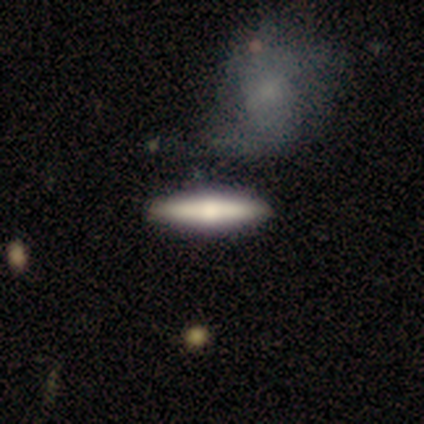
Smooth or featured? smooth (51%)
How rounded? cigar-shaped (89%)
Merging? none (94%)